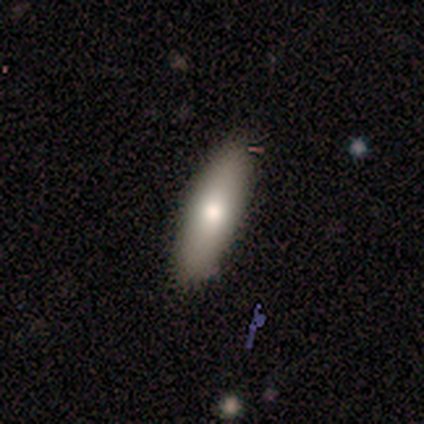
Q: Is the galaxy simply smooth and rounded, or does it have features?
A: smooth — 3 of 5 (60%).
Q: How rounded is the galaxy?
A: in between — 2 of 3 (67%).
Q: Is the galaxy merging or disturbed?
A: none — 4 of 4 (100%).